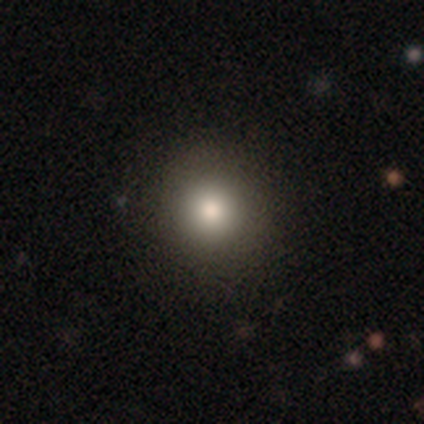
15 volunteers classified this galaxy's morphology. A smooth galaxy with no disk features (80%) that is round (92%). Merging: none (86%).